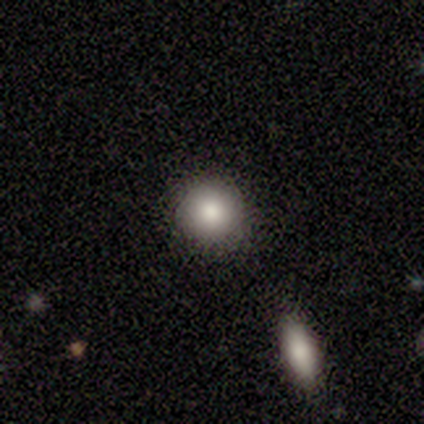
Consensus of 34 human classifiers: Smooth or featured?
  - smooth: 76% *
  - star or artifact: 15%
  - featured or disk: 9%
How rounded?
  - round: 96% *
  - in between: 4%
  - cigar-shaped: 0%
Merging?
  - none: 86% *
  - minor disturbance: 7%
  - major disturbance: 3%
  - merger: 3%